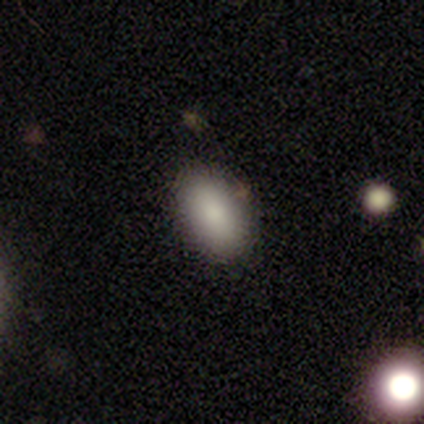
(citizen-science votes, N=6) Smooth or featured?
  - smooth: 100% *
  - featured or disk: 0%
  - star or artifact: 0%
How rounded?
  - in between: 83% *
  - round: 17%
  - cigar-shaped: 0%
Merging?
  - none: 100% *
  - minor disturbance: 0%
  - major disturbance: 0%
  - merger: 0%